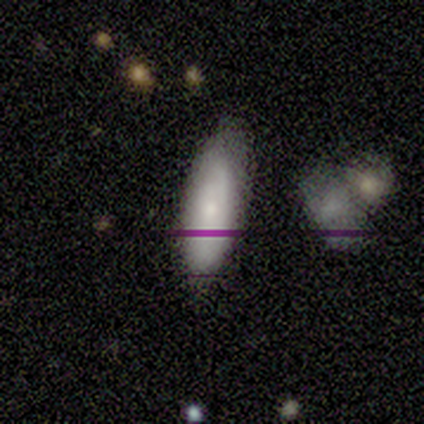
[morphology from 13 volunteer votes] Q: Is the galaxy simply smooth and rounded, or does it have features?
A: smooth — 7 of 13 (54%).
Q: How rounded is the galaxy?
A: in between — 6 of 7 (86%).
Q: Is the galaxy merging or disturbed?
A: none — 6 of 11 (55%).